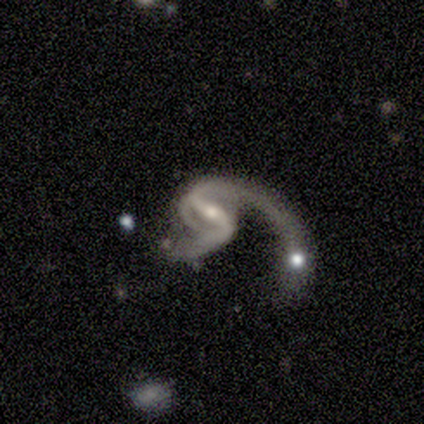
smooth_or_featured: featured or disk (p=0.80) [alt: smooth p=0.20]
disk_edge_on: no (p=1.00)
bar: strong (p=0.50) [alt: weak p=0.25]
has_spiral_arms: yes (p=0.75) [alt: no p=0.25]
spiral_winding: loose (p=0.67) [alt: medium p=0.33]
spiral_arm_count: 2 (p=1.00)
bulge_size: small (p=0.75) [alt: moderate p=0.25]
merging: major disturbance (p=0.60) [alt: none p=0.20]